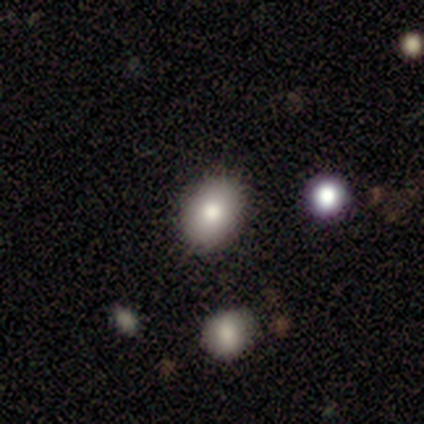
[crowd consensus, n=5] A smooth galaxy with no disk features (80%) that is round (50%, tied with in between). Merging: none (100%).